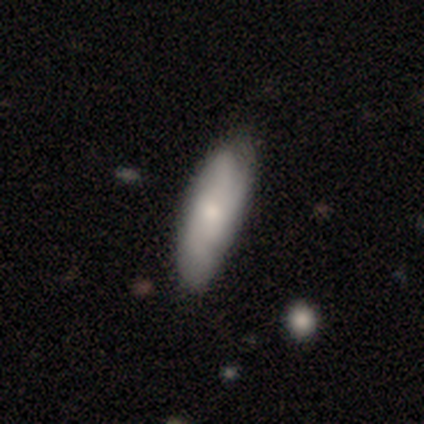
Smooth or featured?
  - smooth: 63% *
  - featured or disk: 28%
  - star or artifact: 9%
How rounded?
  - in between: 67% *
  - cigar-shaped: 30%
  - round: 4%
Merging?
  - none: 90% *
  - minor disturbance: 5%
  - major disturbance: 5%
  - merger: 0%